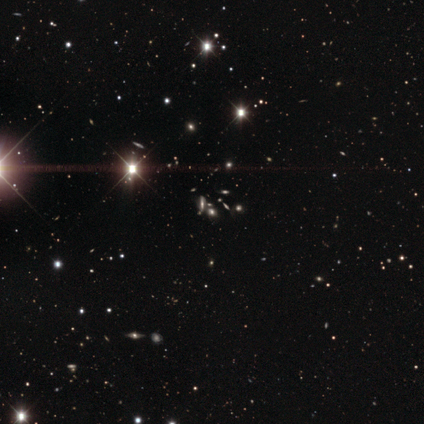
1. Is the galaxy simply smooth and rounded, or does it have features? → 40% smooth (tied), 40% star or artifact (tied), 20% featured or disk.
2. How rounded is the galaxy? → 100% round, 0% in between, 0% cigar-shaped.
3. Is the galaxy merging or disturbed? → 100% none, 0% minor disturbance, 0% major disturbance, 0% merger.